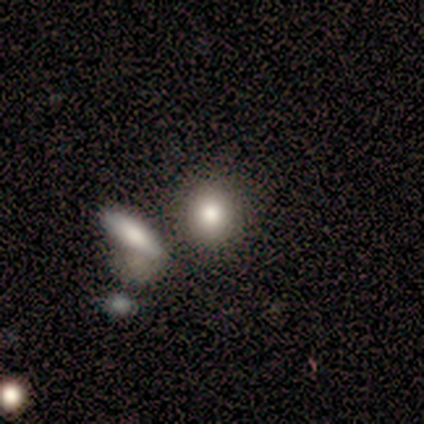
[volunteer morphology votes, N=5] A smooth galaxy with no disk features (80%) that is round (100%). Merging: none (60%).